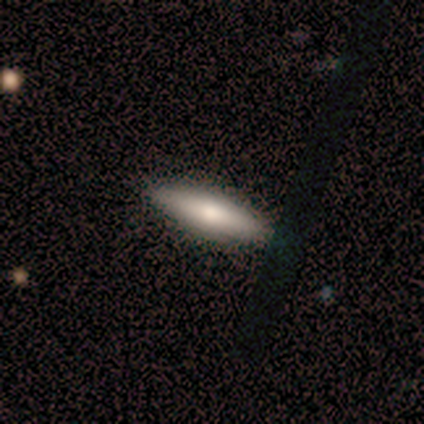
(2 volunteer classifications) This appears to be a smooth galaxy with no disk features (50%, tied with featured or disk) that is cigar-shaped (100%). Merging: none (100%).